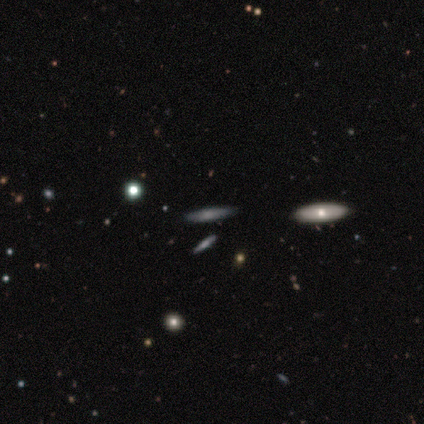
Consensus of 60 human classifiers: Smooth or featured? smooth (60%)
How rounded? cigar-shaped (81%)
Merging? none (91%)